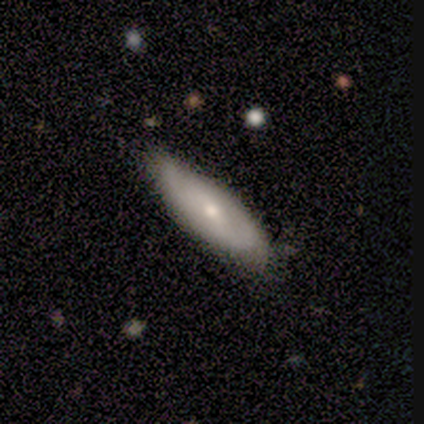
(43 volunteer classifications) Smooth or featured: featured or disk — 53% (smooth — 35%)
Edge-on disk: no — 70% (yes — 30%)
Bar: no — 81% (weak — 12%)
Spiral arms: yes — 62% (no — 38%)
Spiral winding: tight — 40% (tied with medium — 40%)
Spiral arm count: 2 — 60% (can't tell — 30%)
Bulge size: moderate — 56% (small — 44%)
Merging: none — 84% (minor disturbance — 16%)